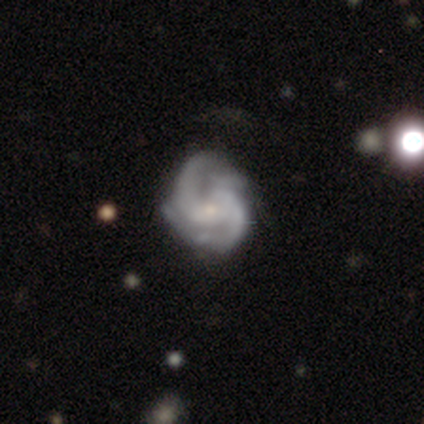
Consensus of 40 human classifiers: Smooth or featured? 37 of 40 (92%) said featured or disk. Edge-on disk? 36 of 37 (97%) said no. Bar? 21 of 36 (58%) said no. Spiral arms? 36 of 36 (100%) said yes. Spiral winding? 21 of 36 (58%) said medium. Spiral arm count? 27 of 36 (75%) said 2. Bulge size? 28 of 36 (78%) said small. Merging? 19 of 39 (49%) said none.